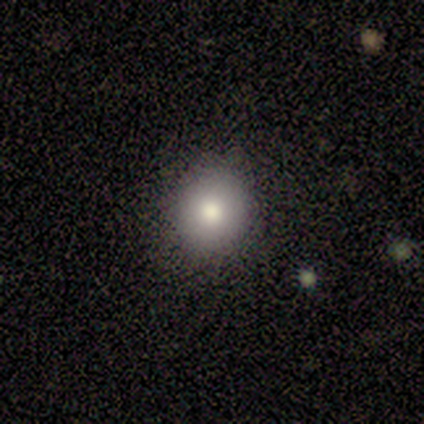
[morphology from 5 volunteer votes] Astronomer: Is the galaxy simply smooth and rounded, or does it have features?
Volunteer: smooth — 80%.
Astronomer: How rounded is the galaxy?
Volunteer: round — 100%.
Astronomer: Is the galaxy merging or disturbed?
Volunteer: none — 100%.